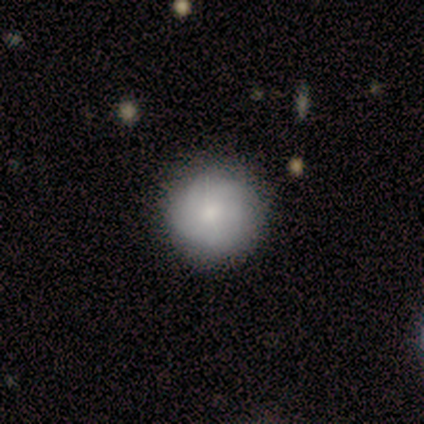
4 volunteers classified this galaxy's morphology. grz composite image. It shows a smooth galaxy with no disk features (100%) that is round (100%). Merging: none (100%).